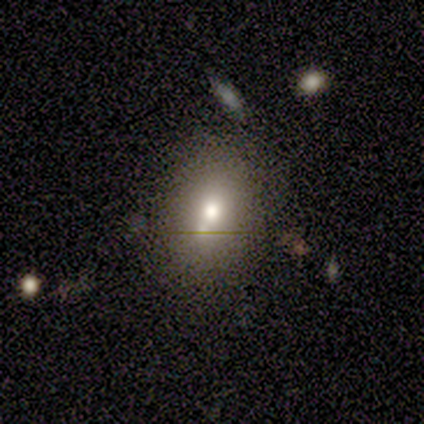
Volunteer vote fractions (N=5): This appears to be a smooth galaxy with no disk features (100%) that is in between round and cigar-shaped (80%). Merging: none (60%).